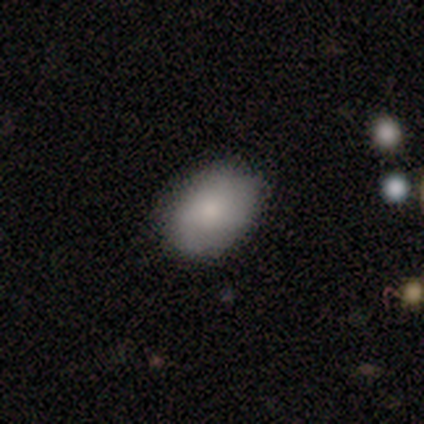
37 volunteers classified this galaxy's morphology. type=smooth (76%); roundness=in between (86%); merging=none (74%).